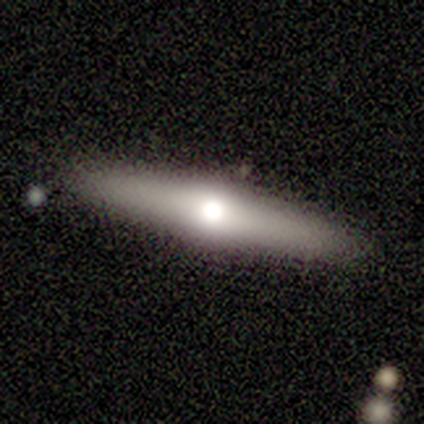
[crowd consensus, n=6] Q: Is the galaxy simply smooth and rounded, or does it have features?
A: featured or disk — 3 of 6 (50%).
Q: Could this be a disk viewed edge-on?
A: yes — 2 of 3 (67%).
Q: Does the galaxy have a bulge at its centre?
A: none — 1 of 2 (50%, tied with rounded).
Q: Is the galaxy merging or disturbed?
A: none — 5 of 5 (100%).